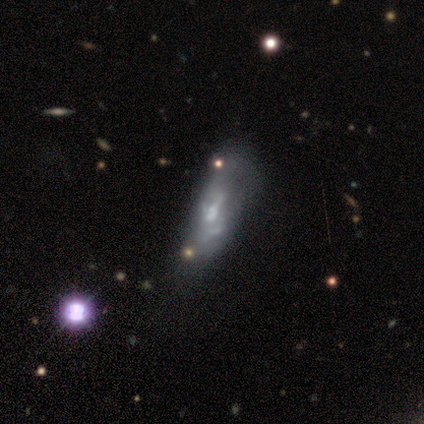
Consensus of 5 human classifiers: Morphology: type=featured or disk (100%); edge-on=no (100%); bar=no (80%); spiral arms=no (100%); bulge=moderate (60%); merging=minor disturbance (40%).